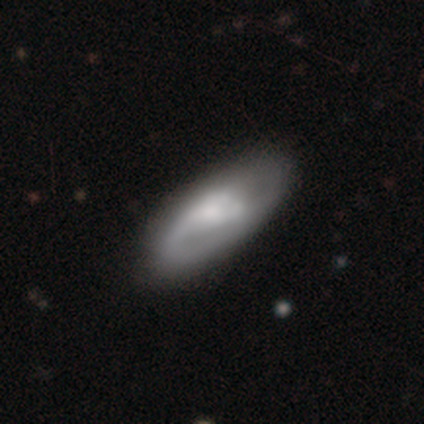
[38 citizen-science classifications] A featured or disk galaxy (63%) with no bar (45%), 1 (38%) medium (46%) spiral arms (65%) and a small central bulge (35%). Merging: none (61%).